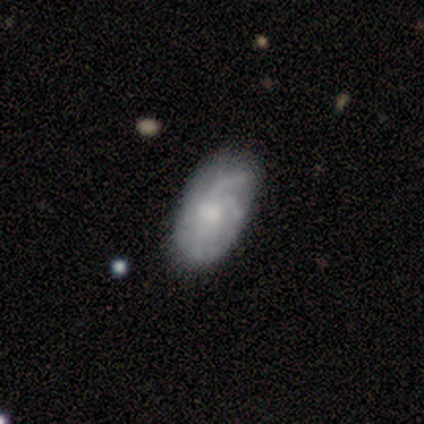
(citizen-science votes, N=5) Overall: featured or disk (80%). Edge-on disk: no (100%). Bar: weak (50%, tied with no). Spiral arms: yes (100%). Spiral arm count: can't tell (50%; 2 25%). Spiral winding: medium (75%). Bulge size: none (50%; moderate 25%). Merging: none (80%).